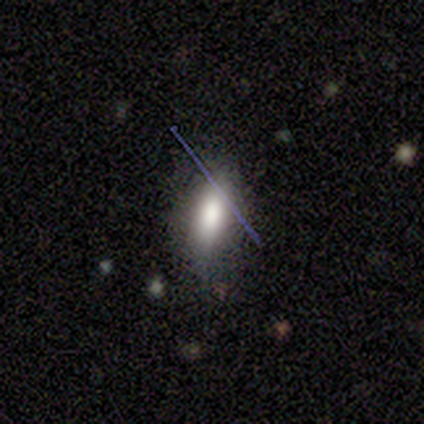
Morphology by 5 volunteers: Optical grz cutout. It shows a smooth galaxy with no disk features (60%) that is cigar-shaped (67%). Merging: none (75%).